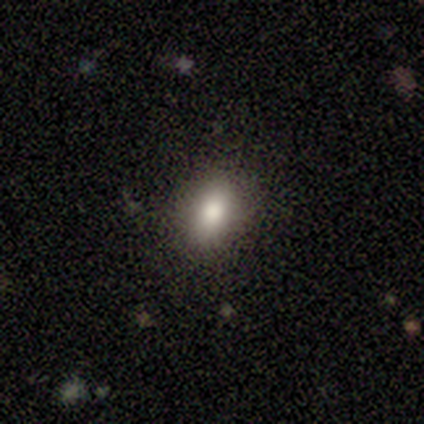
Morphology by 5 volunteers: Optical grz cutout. It shows a smooth galaxy with no disk features (80%) that is round (50%, tied with in between). Merging: none (75%).